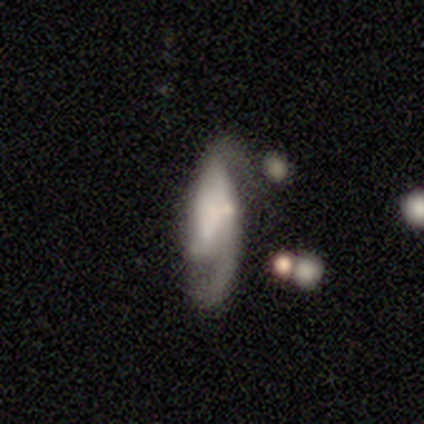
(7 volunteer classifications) Smooth or featured? featured or disk (100%)
Edge-on disk? no (100%)
Bar? weak (57%)
Spiral arms? yes (57%)
Spiral winding? medium (75%)
Spiral arm count? 2 (100%)
Bulge size? none (57%)
Merging? none (29%, tied with minor disturbance and major disturbance)